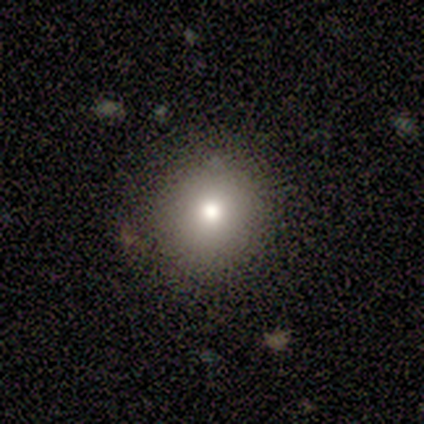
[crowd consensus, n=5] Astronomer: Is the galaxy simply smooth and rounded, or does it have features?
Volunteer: smooth — 40%, tied with star or artifact at 40%.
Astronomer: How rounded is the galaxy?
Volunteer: round — 100%.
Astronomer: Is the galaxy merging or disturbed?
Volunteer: none — 100%.